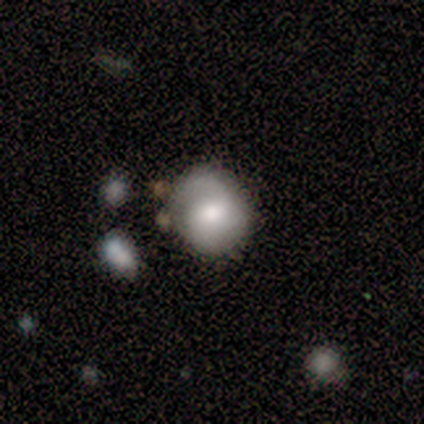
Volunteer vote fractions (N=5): Smooth or featured? 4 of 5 (80%) said featured or disk. Edge-on disk? 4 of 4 (100%) said no. Bar? 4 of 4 (100%) said weak. Spiral arms? 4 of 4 (100%) said yes. Spiral winding? 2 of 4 (50%) said medium. Spiral arm count? 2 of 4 (50%) said can't tell. Bulge size? 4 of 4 (100%) said moderate. Merging? 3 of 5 (60%) said none.